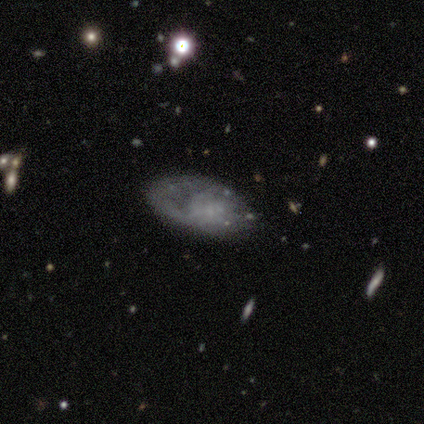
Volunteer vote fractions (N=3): This appears to be a featured or disk galaxy (67%) with no bar (100%), no spiral arms (100%) and a moderate central bulge (50%, tied with none). Merging: none (33%, tied with minor disturbance and major disturbance).